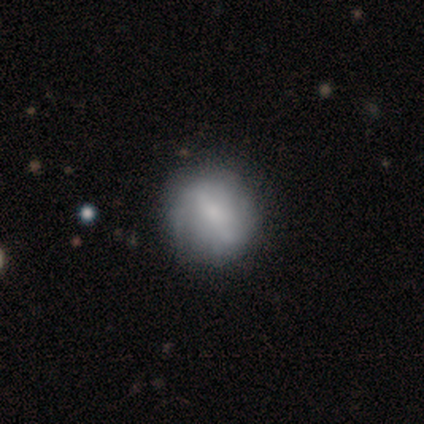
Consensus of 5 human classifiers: Q: Smooth or featured?
A: smooth (100%)
Q: How rounded?
A: round (80%); runner-up: in between (20%)
Q: Merging?
A: none (60%); runner-up: minor disturbance (40%)